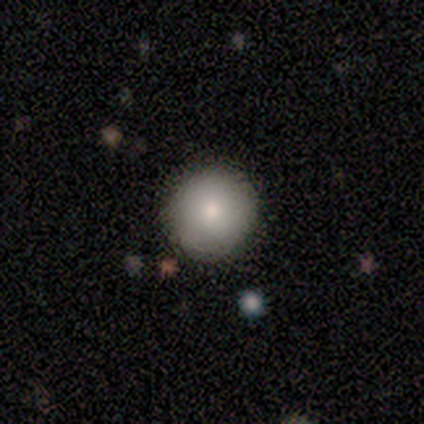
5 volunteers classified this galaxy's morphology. A smooth galaxy with no disk features (80%) that is round (100%).

Vote fractions:
- Smooth or featured? smooth: 80% / featured or disk: 20% / star or artifact: 0%
- How rounded? round: 100% / in between: 0% / cigar-shaped: 0%
- Merging? none: 100% / minor disturbance: 0% / major disturbance: 0% / merger: 0%